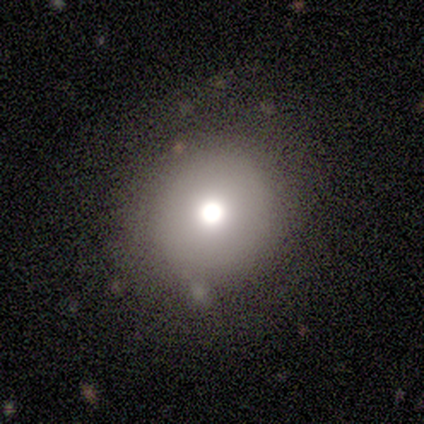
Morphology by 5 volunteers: Smooth or featured? 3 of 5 (60%) said smooth. How rounded? 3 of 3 (100%) said round. Merging? 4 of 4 (100%) said none.